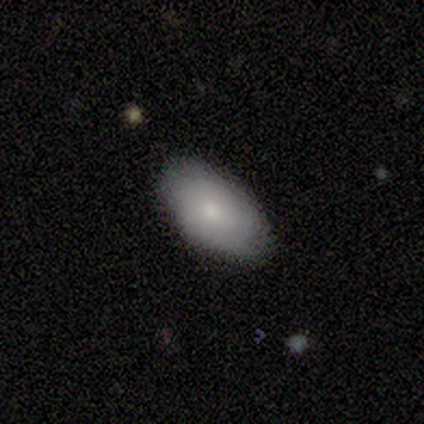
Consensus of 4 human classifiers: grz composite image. It shows a smooth galaxy with no disk features (50%, tied with featured or disk) that is in between round and cigar-shaped (100%). Merging: none (100%).